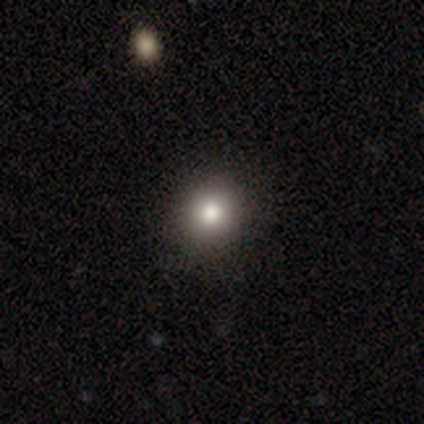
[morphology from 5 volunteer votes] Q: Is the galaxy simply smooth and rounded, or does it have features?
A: smooth — 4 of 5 (80%).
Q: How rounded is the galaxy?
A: round — 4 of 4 (100%).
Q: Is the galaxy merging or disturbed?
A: none — 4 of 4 (100%).